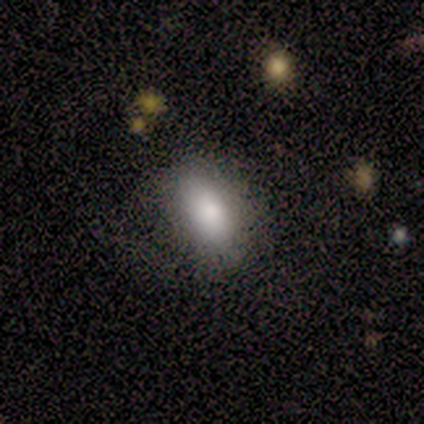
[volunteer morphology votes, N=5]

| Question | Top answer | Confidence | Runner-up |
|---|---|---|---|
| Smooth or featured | smooth | 80% | featured or disk (20%) |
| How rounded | in between | 100% | — |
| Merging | none | 80% | minor disturbance (20%) |